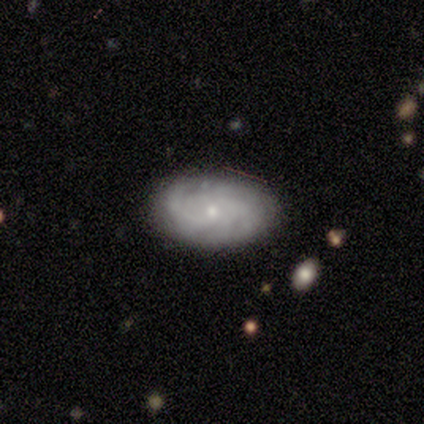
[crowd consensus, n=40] Smooth or featured?
  - featured or disk: 82% *
  - smooth: 12%
  - star or artifact: 5%
Edge-on disk?
  - no: 100% *
  - yes: 0%
Bar?
  - no: 85% *
  - weak: 9%
  - strong: 6%
Spiral arms?
  - yes: 97% *
  - no: 3%
Spiral winding?
  - tight: 69% *
  - medium: 22%
  - loose: 9%
Spiral arm count?
  - can't tell: 50% *
  - 4: 16%
  - 3: 12%
  - more than 4: 9%
  - 1: 6%
  - 2: 6%
Bulge size?
  - small: 82% *
  - moderate: 15%
  - none: 3%
  - dominant: 0%
  - large: 0%
Merging?
  - none: 84% *
  - minor disturbance: 16%
  - major disturbance: 0%
  - merger: 0%